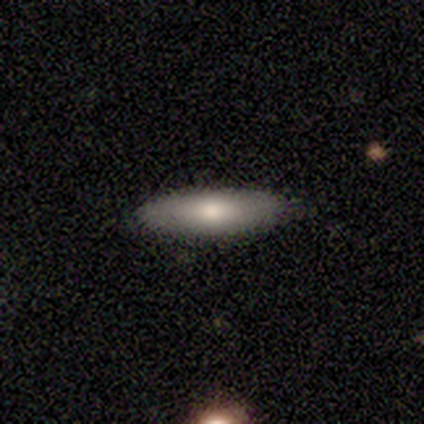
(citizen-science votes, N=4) This is likely a smooth galaxy (75%). How rounded: likely in between (67%). Merging: clearly none (100%).